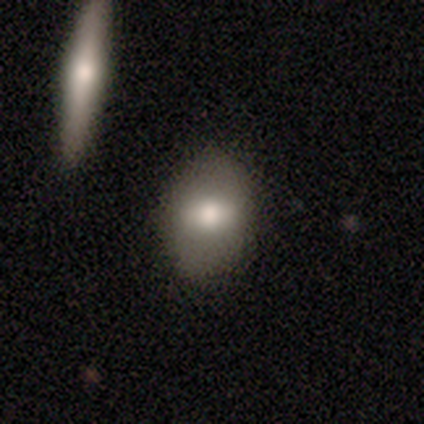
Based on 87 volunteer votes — Smooth or featured?
  - smooth: 54% *
  - featured or disk: 37%
  - star or artifact: 9%
How rounded?
  - in between: 64% *
  - round: 28%
  - cigar-shaped: 9%
Merging?
  - none: 81% *
  - minor disturbance: 10%
  - major disturbance: 5%
  - merger: 4%